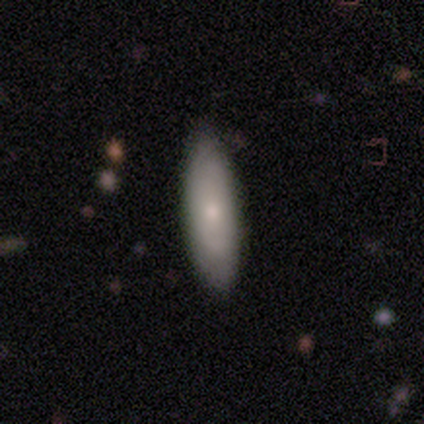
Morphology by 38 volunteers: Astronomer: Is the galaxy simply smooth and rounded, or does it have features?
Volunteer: smooth — 71%.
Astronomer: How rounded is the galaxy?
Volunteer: in between — 63%.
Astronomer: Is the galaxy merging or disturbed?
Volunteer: none — 89%.